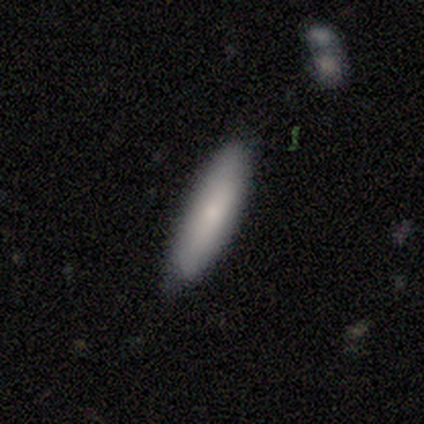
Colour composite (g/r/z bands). It shows a smooth galaxy with no disk features (100%) that is cigar-shaped (80%). Merging: none (60%).